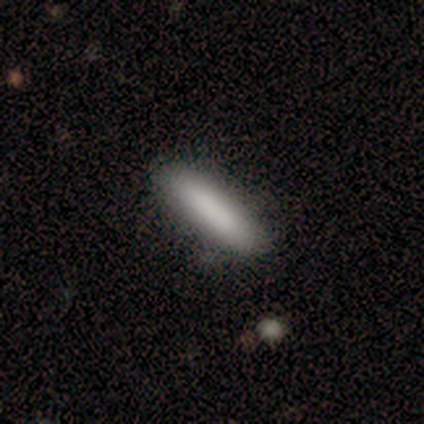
Smooth or featured? 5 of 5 (100%) said smooth. How rounded? 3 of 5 (60%) said cigar-shaped. Merging? 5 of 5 (100%) said none.